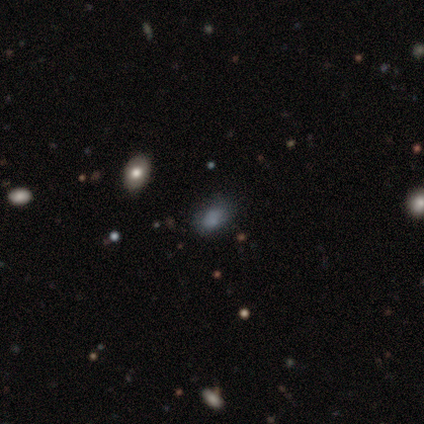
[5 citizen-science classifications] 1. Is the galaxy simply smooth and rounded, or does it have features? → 80% smooth, 20% star or artifact, 0% featured or disk.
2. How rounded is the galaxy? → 100% in between, 0% round, 0% cigar-shaped.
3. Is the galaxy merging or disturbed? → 75% none, 25% minor disturbance, 0% major disturbance, 0% merger.